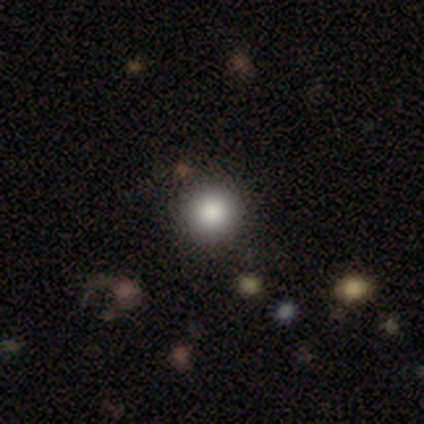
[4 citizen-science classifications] smooth_or_featured: smooth (p=0.75) [alt: star or artifact p=0.25]
how_rounded: round (p=1.00)
merging: none (p=1.00)